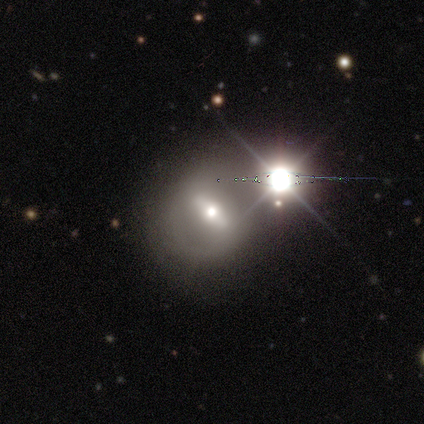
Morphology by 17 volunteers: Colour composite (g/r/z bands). It shows a featured or disk galaxy (47%) with a strong bar (75%), no spiral arms (75%) and a moderate central bulge (75%). Merging: none (77%).